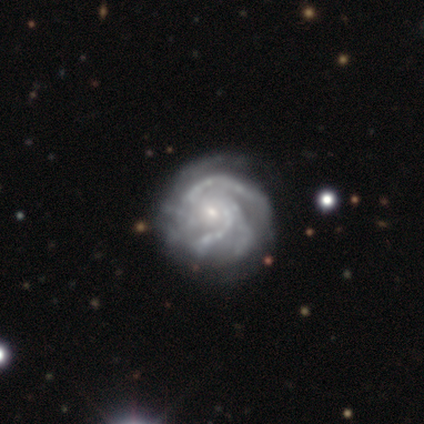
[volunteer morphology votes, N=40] Volunteers were most divided on "bar": no: 61%, weak: 27%, strong: 12%. More confident: spiral arms — yes (97%); edge-on disk — no (94%); smooth or featured — featured or disk (88%); spiral winding — tight (81%); bulge size — small (79%); merging — none (75%); spiral arm count — 3 (56%).